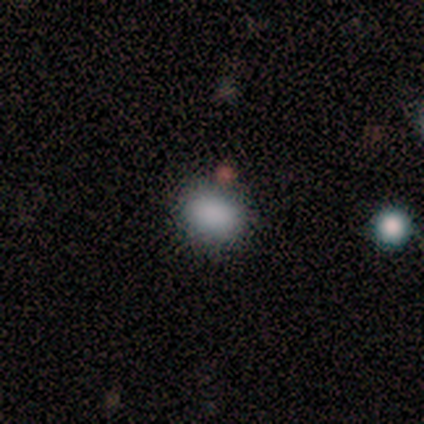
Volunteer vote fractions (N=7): Smooth or featured? smooth (100%)
How rounded? in between (71%)
Merging? none (86%)